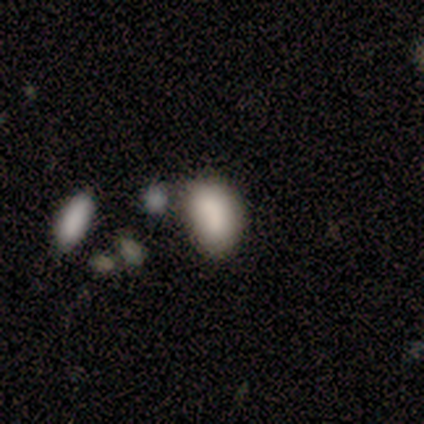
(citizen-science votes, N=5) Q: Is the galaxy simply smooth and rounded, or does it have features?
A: smooth — 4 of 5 (80%).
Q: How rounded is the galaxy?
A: in between — 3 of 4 (75%).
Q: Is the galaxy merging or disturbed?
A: minor disturbance — 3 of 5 (60%).